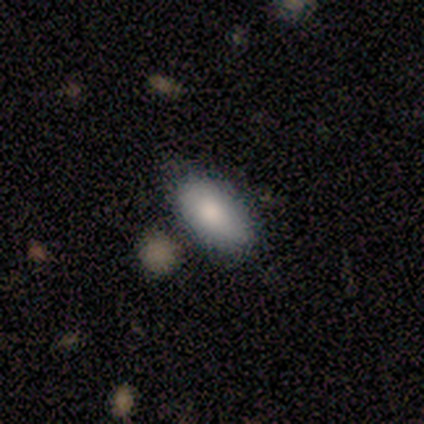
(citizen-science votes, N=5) A smooth galaxy with no disk features (60%) that is in between round and cigar-shaped (100%). Merging: none (80%).